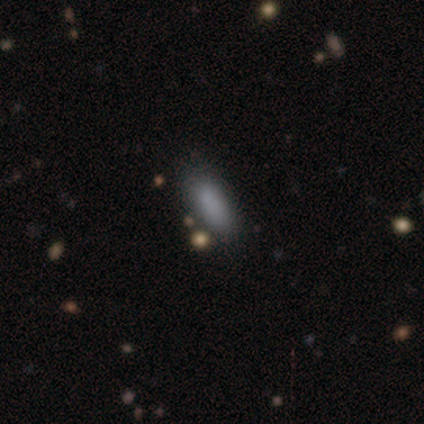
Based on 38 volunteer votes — Morphology: type=smooth (89%); roundness=in between (50%); merging=none (76%).